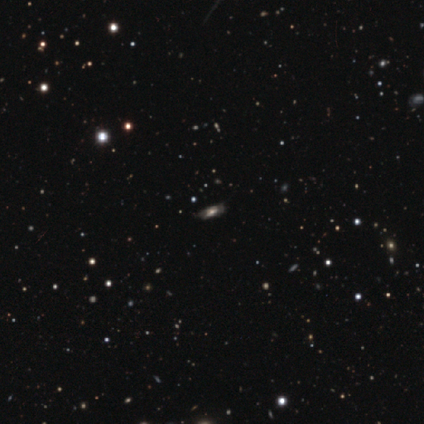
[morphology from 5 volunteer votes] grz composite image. It shows a featured or disk galaxy (60%) with a strong bar (50%, tied with weak), 2 (50%, tied with can't tell) medium (100%) spiral arms (100%) and a large central bulge (50%, tied with moderate). Merging: none (75%).